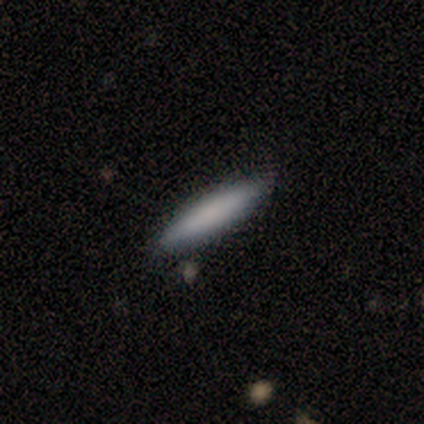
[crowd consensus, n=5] Smooth or featured?
  - smooth: 80% *
  - featured or disk: 20%
  - star or artifact: 0%
How rounded?
  - in between: 50% * (tied)
  - cigar-shaped: 50% * (tied)
  - round: 0%
Merging?
  - none: 80% *
  - merger: 20%
  - minor disturbance: 0%
  - major disturbance: 0%